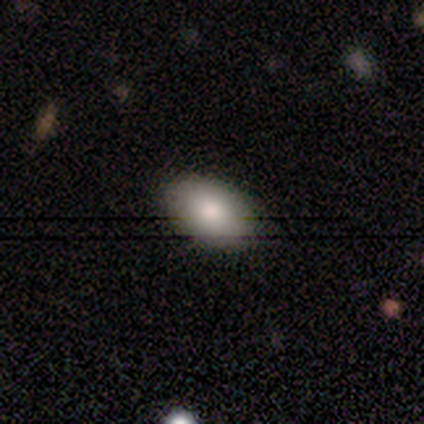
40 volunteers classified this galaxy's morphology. smooth-or-featured: smooth: 80% | featured or disk: 12% | star or artifact: 8%
  how-rounded: in between: 84% | round: 16% | cigar-shaped: 0%
  merging: none: 97% | minor disturbance: 3% | major disturbance: 0% | merger: 0%